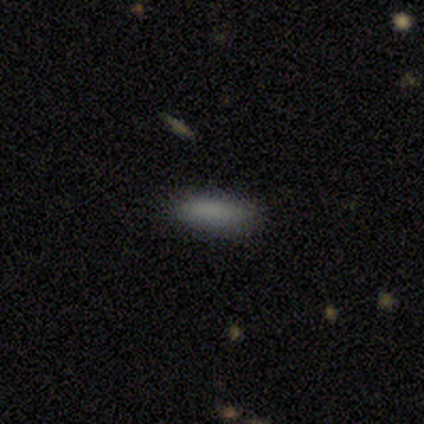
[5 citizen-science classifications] A smooth galaxy with no disk features (80%) that is cigar-shaped (75%).

Vote fractions:
- Smooth or featured? smooth: 80% / featured or disk: 20% / star or artifact: 0%
- How rounded? cigar-shaped: 75% / in between: 25% / round: 0%
- Merging? none: 80% / minor disturbance: 20% / major disturbance: 0% / merger: 0%